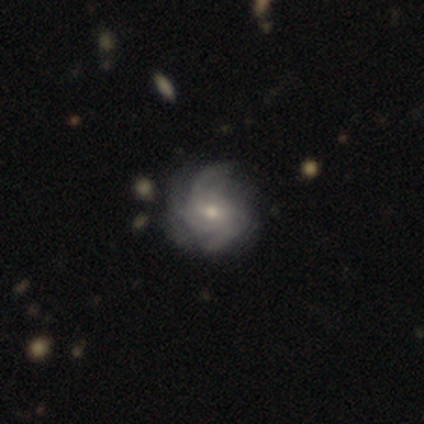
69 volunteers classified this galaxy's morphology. Smooth or featured: featured or disk — 84% (star or artifact — 9%)
Edge-on disk: no — 95% (yes — 5%)
Bar: no — 56% (weak — 35%)
Spiral arms: yes — 93% (no — 7%)
Spiral winding: medium — 53% (tight — 35%)
Spiral arm count: can't tell — 35% (3 — 24%)
Bulge size: moderate — 53% (small — 42%)
Merging: none — 62% (minor disturbance — 32%)